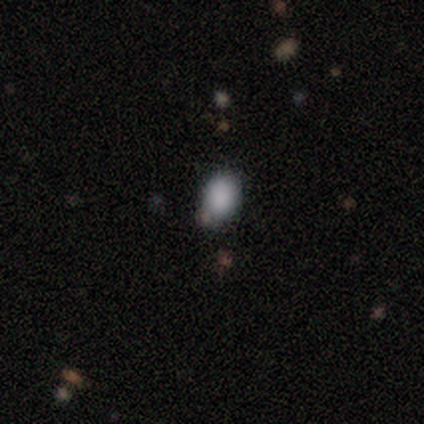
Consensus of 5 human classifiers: Q: Smooth or featured?
A: smooth (100%)
Q: How rounded?
A: in between (60%); runner-up: round (40%)
Q: Merging?
A: none (60%); runner-up: minor disturbance (20%)